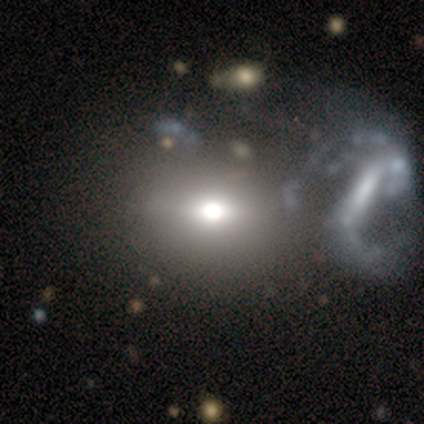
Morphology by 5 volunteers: This is likely a featured or disk galaxy (60%). It is clearly not viewed edge-on (100%). Bar: marginally strong (33%, tied with weak and no). Spiral arm pattern: likely no (67%). Central bulge: likely dominant (67%). Merging: likely merger (60%).